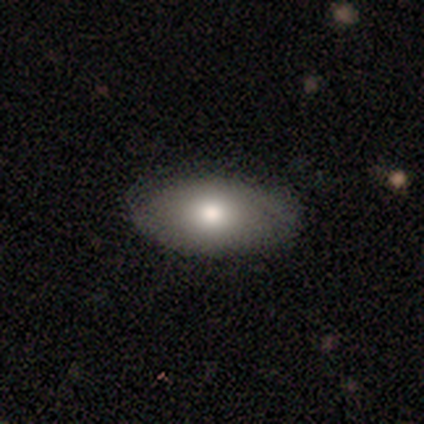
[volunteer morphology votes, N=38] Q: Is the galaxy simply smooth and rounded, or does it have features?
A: smooth — 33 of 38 (87%).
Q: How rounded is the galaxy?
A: in between — 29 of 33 (88%).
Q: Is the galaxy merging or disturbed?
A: none — 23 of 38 (61%).